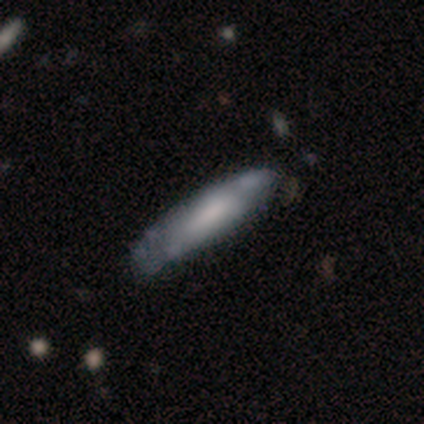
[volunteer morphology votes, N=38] Smooth or featured? 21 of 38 (55%) said smooth. How rounded? 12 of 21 (57%) said cigar-shaped. Merging? 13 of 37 (35%) said none.